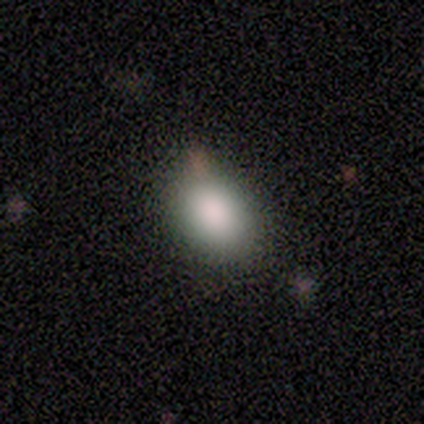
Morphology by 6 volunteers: Smooth or featured? smooth (83%)
How rounded? in between (80%)
Merging? none (67%)